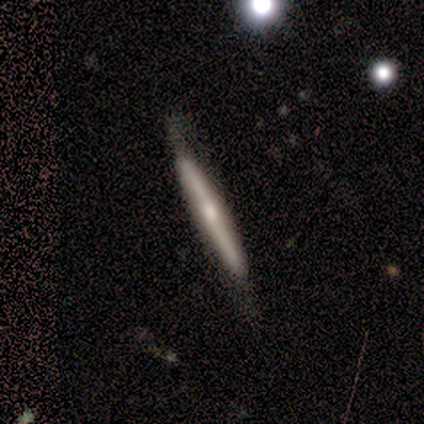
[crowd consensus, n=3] smooth 100%, featured or disk 0%, star or artifact 0%. Down the decision tree: how rounded — cigar-shaped (100%); merging — none (100%).